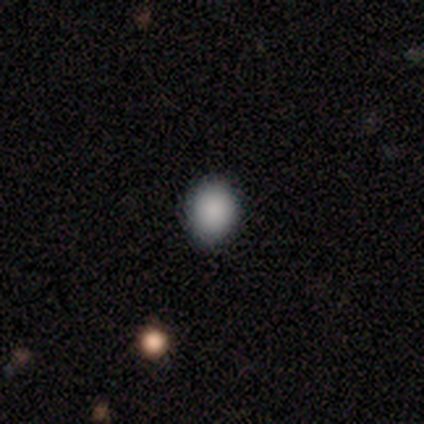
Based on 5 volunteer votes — Volunteers were most divided on "how rounded": in between: 60%, round: 40%, cigar-shaped: 0%. More confident: smooth or featured — smooth (100%); merging — none (100%).